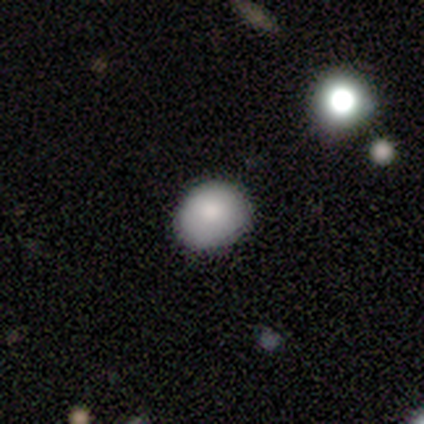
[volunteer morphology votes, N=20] smooth_or_featured: smooth (p=0.90) [alt: featured or disk p=0.05]
how_rounded: round (p=0.50) [tied with: in between p=0.50]
merging: none (p=0.89) [alt: minor disturbance p=0.05]